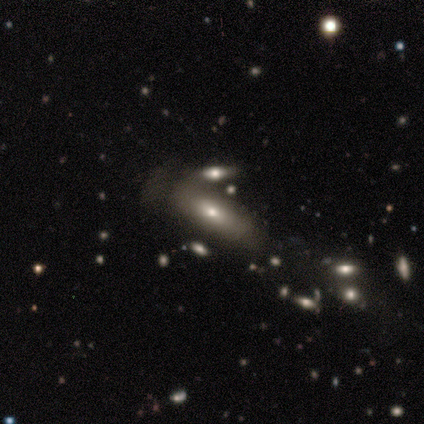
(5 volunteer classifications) A smooth galaxy with no disk features (60%) that is in between round and cigar-shaped (67%).

Vote fractions:
- Smooth or featured? smooth: 60% / featured or disk: 20% / star or artifact: 20%
- How rounded? in between: 67% / cigar-shaped: 33% / round: 0%
- Merging? major disturbance: 75% / none: 25% / minor disturbance: 0% / merger: 0%